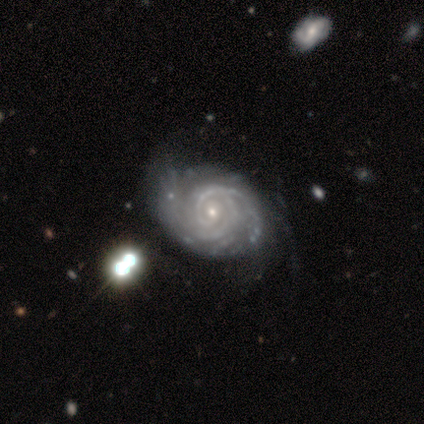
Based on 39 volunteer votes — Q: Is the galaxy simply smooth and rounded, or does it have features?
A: featured or disk — 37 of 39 (95%).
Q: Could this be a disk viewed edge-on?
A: no — 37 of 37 (100%).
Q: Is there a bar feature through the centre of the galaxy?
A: no — 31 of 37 (84%).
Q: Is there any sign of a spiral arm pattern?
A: yes — 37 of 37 (100%).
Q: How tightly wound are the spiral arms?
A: tight — 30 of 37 (81%).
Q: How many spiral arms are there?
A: can't tell — 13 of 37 (35%).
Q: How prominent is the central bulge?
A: small — 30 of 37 (81%).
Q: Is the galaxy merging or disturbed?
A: none — 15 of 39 (38%).